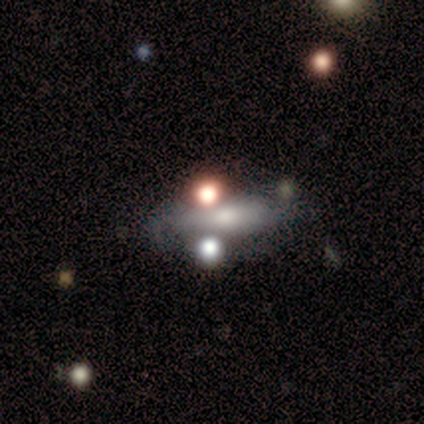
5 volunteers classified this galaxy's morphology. smooth 80%, star or artifact 20%, featured or disk 0%. Down the decision tree: how rounded — cigar-shaped (75%); merging — major disturbance (50%).